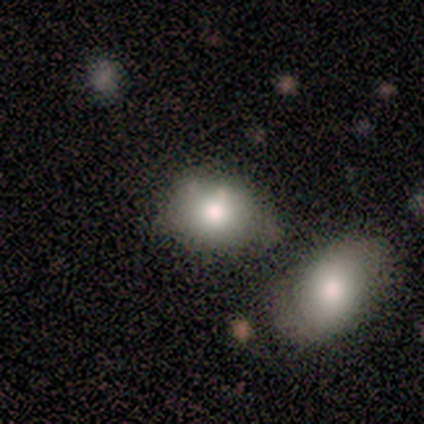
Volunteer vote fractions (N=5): Smooth or featured? 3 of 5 (60%) said smooth. How rounded? 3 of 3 (100%) said in between. Merging? 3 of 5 (60%) said none.